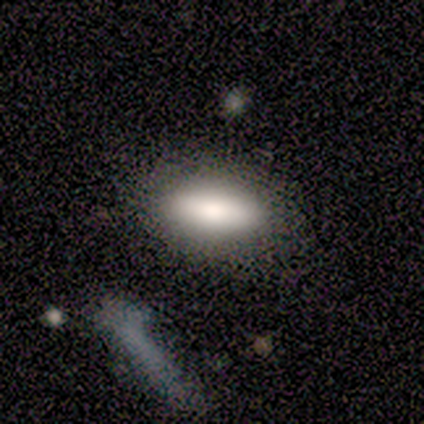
Volunteers were most divided on "how rounded": in between: 71%, cigar-shaped: 23%, round: 6%. More confident: smooth or featured — smooth (88%); merging — none (84%).